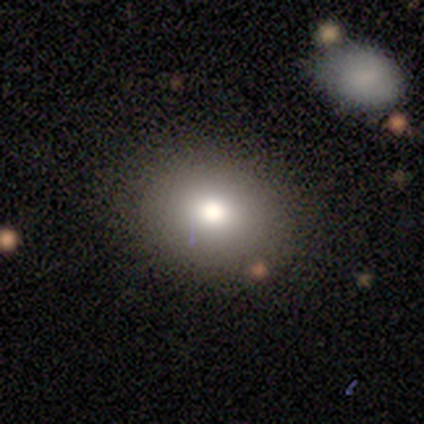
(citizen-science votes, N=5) This is likely a featured or disk galaxy (60%). It is likely not viewed edge-on (67%). Bar: clearly no (100%). Spiral arm pattern: clearly no (100%). Central bulge: clearly moderate (100%). Merging: clearly none (100%).